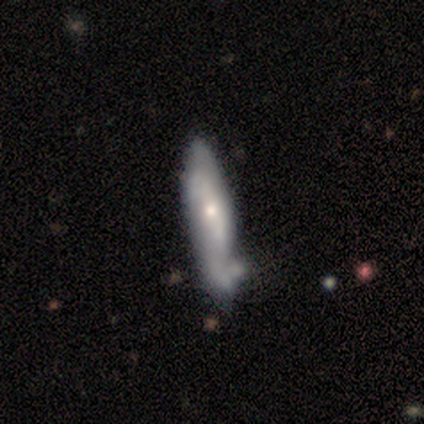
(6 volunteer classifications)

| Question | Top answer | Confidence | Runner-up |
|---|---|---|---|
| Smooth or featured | featured or disk | 67% | smooth (17%) |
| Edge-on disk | no | 75% | yes (25%) |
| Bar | no | 67% | weak (33%) |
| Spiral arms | no | 67% | yes (33%) |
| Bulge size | moderate | 67% | small (33%) |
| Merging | major disturbance | 40% | tied: merger (40%) |